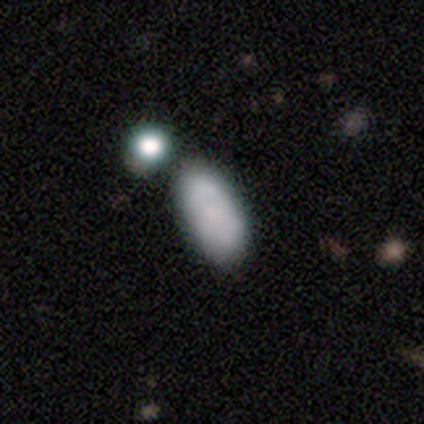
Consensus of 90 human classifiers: This is likely a smooth galaxy (74%). How rounded: clearly in between (94%). Merging: likely none (64%).